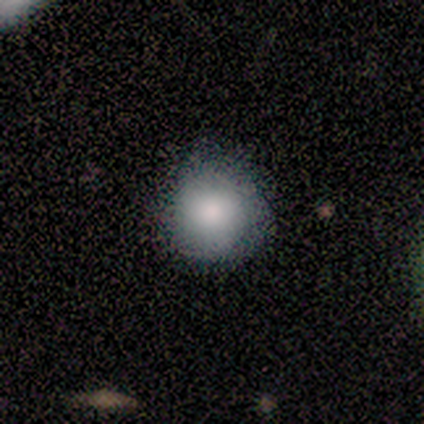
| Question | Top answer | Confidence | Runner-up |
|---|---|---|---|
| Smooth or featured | smooth | 75% | featured or disk (25%) |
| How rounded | round | 100% | — |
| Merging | none | 75% | major disturbance (25%) |